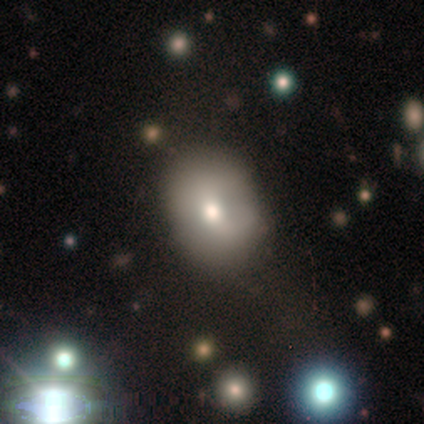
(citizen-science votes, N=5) This appears to be a smooth galaxy with no disk features (100%) that is round (60%). Merging: minor disturbance (60%).